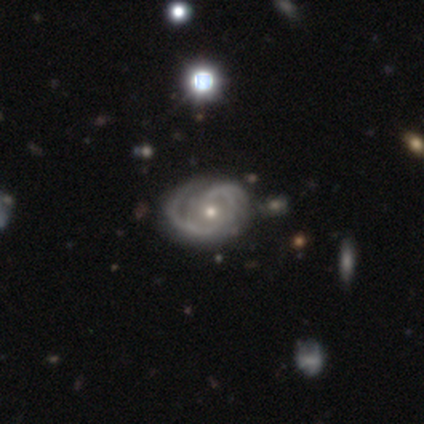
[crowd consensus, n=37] Smooth or featured?
  - featured or disk: 92% *
  - smooth: 5%
  - star or artifact: 3%
Edge-on disk?
  - no: 94% *
  - yes: 6%
Bar?
  - no: 69% *
  - weak: 28%
  - strong: 3%
Spiral arms?
  - yes: 100% *
  - no: 0%
Spiral winding?
  - tight: 59% *
  - medium: 31%
  - loose: 9%
Spiral arm count?
  - 2: 44% *
  - can't tell: 22%
  - 1: 16%
  - 3: 12%
  - 4: 6%
  - more than 4: 0%
Bulge size?
  - small: 50% *
  - moderate: 44%
  - large: 6%
  - dominant: 0%
  - none: 0%
Merging?
  - none: 56% *
  - major disturbance: 11%
  - minor disturbance: 8%
  - merger: 6%